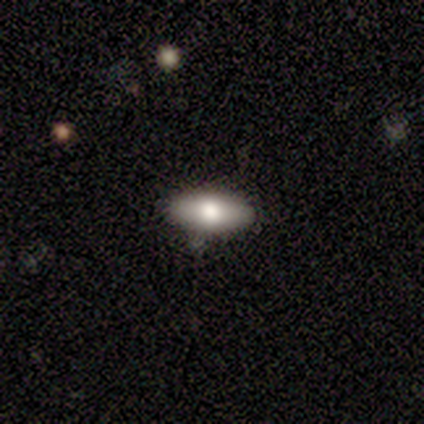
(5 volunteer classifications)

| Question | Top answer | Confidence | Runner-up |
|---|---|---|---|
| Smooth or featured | smooth | 100% | — |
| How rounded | in between | 80% | cigar-shaped (20%) |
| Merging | none | 100% | — |